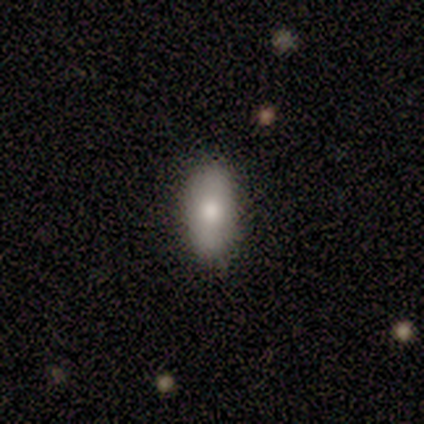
Volunteers were most divided on "how rounded": in between: 80%, cigar-shaped: 20%, round: 0%. More confident: smooth or featured — smooth (100%); merging — none (80%).